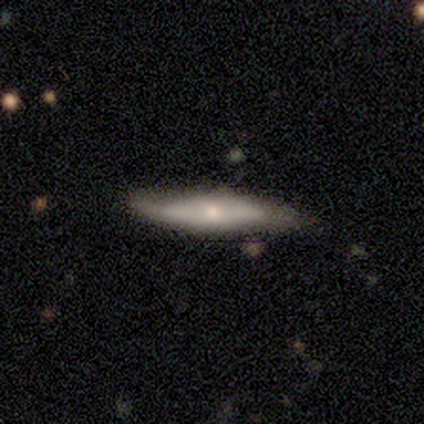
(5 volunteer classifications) Smooth or featured? 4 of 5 (80%) said smooth. How rounded? 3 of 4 (75%) said cigar-shaped. Merging? 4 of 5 (80%) said none.